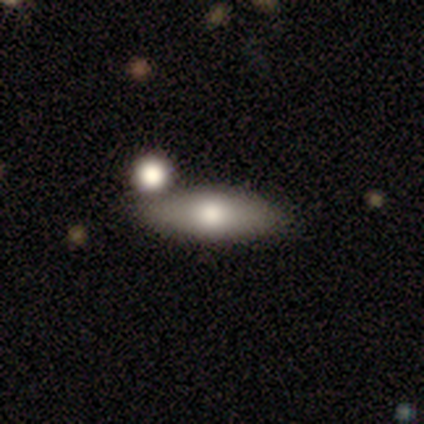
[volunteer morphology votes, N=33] Smooth or featured: smooth — 73% (featured or disk — 24%)
How rounded: in between — 75% (cigar-shaped — 25%)
Merging: merger — 62%